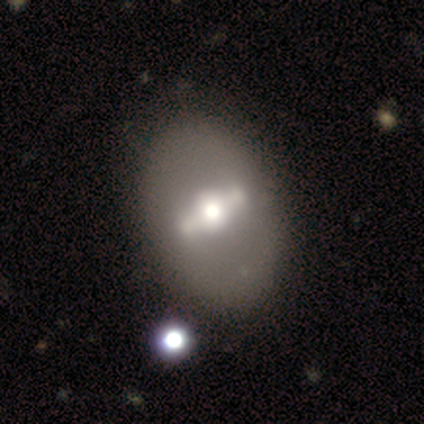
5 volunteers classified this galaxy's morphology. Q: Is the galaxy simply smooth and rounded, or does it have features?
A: featured or disk — 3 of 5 (60%).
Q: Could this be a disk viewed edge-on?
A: no — 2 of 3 (67%).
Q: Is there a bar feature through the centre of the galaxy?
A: strong — 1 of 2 (50%, tied with no).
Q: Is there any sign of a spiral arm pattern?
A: no — 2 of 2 (100%).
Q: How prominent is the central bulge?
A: moderate — 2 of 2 (100%).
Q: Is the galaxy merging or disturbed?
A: none — 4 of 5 (80%).